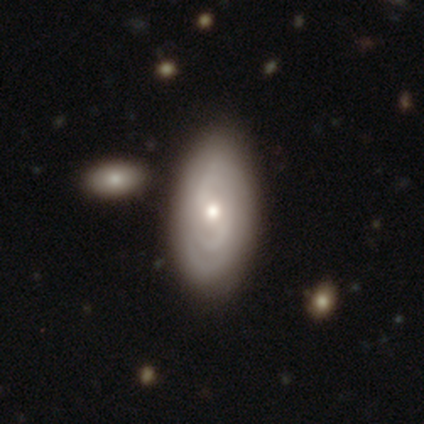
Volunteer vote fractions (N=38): Smooth or featured?
  - featured or disk: 53% *
  - smooth: 42%
  - star or artifact: 5%
Edge-on disk?
  - no: 90% *
  - yes: 10%
Bar?
  - no: 50% *
  - weak: 33%
  - strong: 17%
Spiral arms?
  - yes: 72% *
  - no: 28%
Spiral winding?
  - tight: 54% *
  - medium: 46%
  - loose: 0%
Spiral arm count?
  - 2: 62% *
  - can't tell: 31%
  - 3: 8%
  - 1: 0%
  - 4: 0%
  - more than 4: 0%
Bulge size?
  - moderate: 78% *
  - small: 17%
  - none: 6%
  - dominant: 0%
  - large: 0%
Merging?
  - none: 78% *
  - minor disturbance: 11%
  - major disturbance: 8%
  - merger: 3%